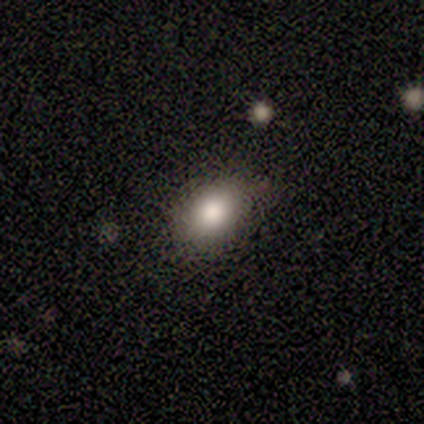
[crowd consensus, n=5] A smooth galaxy with no disk features (80%) that is round (50%).

Vote fractions:
- Smooth or featured? smooth: 80% / star or artifact: 20% / featured or disk: 0%
- How rounded? round: 50% / in between: 25% / cigar-shaped: 25%
- Merging? none: 100% / minor disturbance: 0% / major disturbance: 0% / merger: 0%